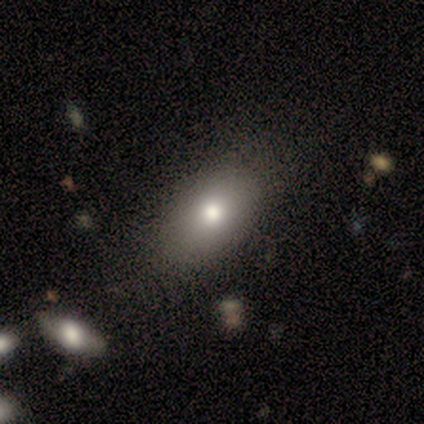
Smooth or featured? smooth (100%)
How rounded? in between (100%)
Merging? none (80%)